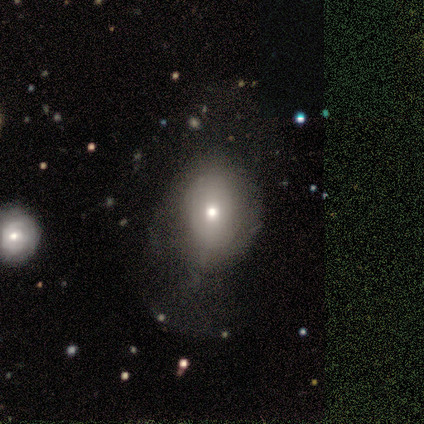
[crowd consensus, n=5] Q: Smooth or featured?
A: smooth (80%); runner-up: featured or disk (20%)
Q: How rounded?
A: round (75%); runner-up: in between (25%)
Q: Merging?
A: none (80%); runner-up: minor disturbance (20%)